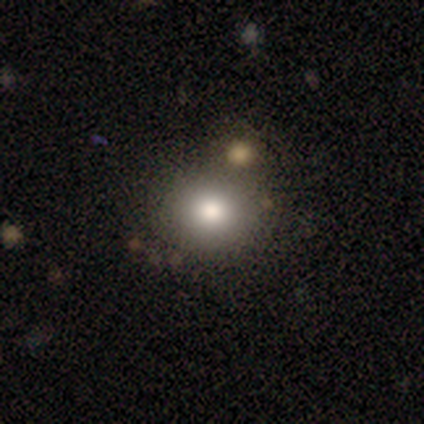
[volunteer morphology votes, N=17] type=smooth (71%); roundness=round (92%); merging=none (93%).